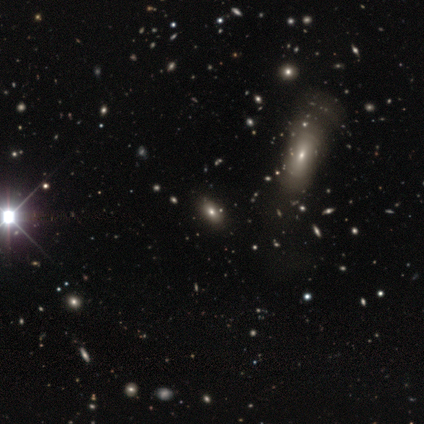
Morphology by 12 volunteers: smooth_or_featured: smooth (p=0.50) [alt: featured or disk p=0.25]
how_rounded: in between (p=1.00)
merging: none (p=0.89) [alt: major disturbance p=0.11]